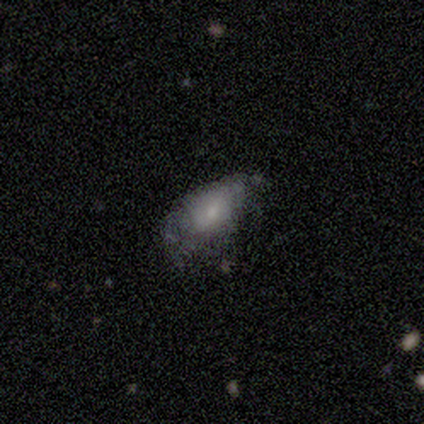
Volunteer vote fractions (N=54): Smooth or featured: smooth — 59% (featured or disk — 37%)
How rounded: in between — 91% (round — 6%)
Merging: minor disturbance — 40% (major disturbance — 37%)